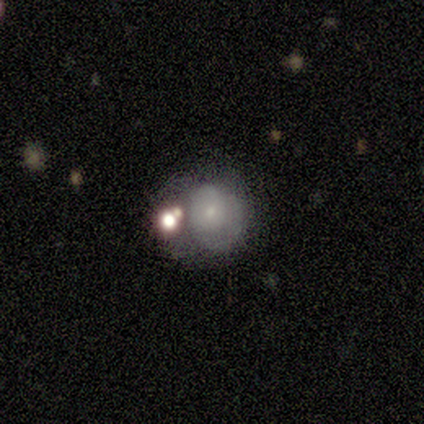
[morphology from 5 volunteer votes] This is marginally a smooth galaxy (40%, tied with featured or disk). How rounded: possibly round (50%, tied with in between). Merging: marginally none (25%, tied with minor disturbance, major disturbance and merger).